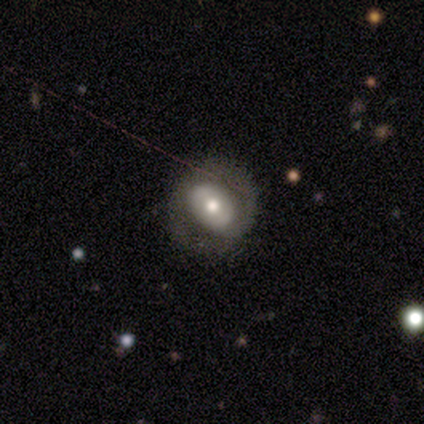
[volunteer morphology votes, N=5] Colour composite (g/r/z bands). It shows a smooth galaxy with no disk features (40%, tied with featured or disk) that is round (50%, tied with in between). Merging: none (75%).